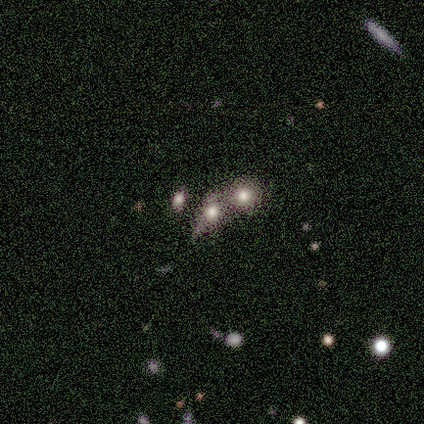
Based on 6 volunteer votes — A star or artifact, not a galaxy (67%).

Vote fractions:
- Smooth or featured? star or artifact: 67% / smooth: 33% / featured or disk: 0%